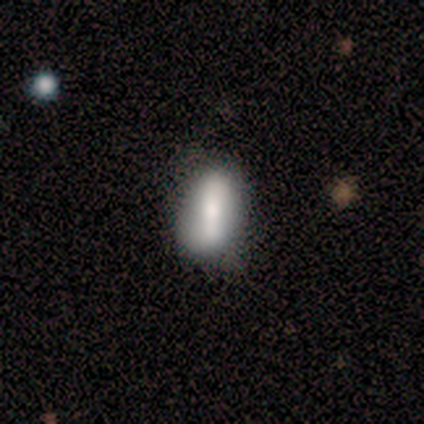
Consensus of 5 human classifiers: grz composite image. It shows a smooth galaxy with no disk features (80%) that is in between round and cigar-shaped (100%). Merging: none (60%).